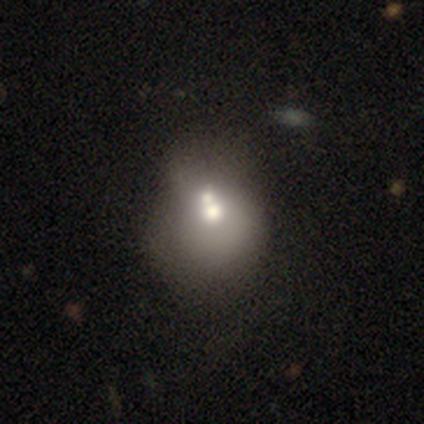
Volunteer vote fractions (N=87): A smooth galaxy with no disk features (56%) that is round (63%). Merging: merger (69%).